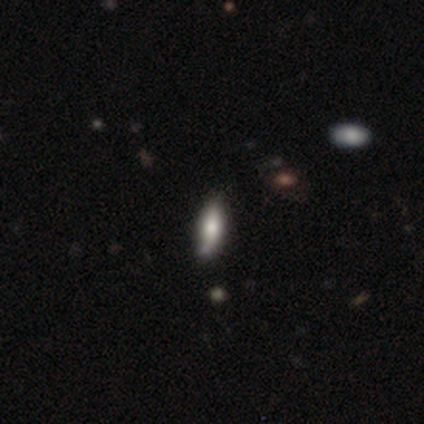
A smooth galaxy with no disk features (100%) that is cigar-shaped (80%).

Vote fractions:
- Smooth or featured? smooth: 100% / featured or disk: 0% / star or artifact: 0%
- How rounded? cigar-shaped: 80% / in between: 20% / round: 0%
- Merging? none: 60% / minor disturbance: 20% / merger: 20% / major disturbance: 0%